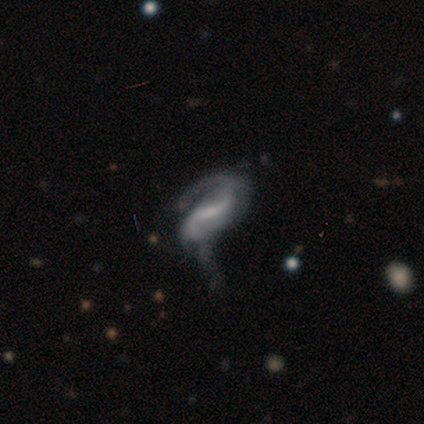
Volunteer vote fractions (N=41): This is clearly a featured or disk galaxy (88%). It is clearly not viewed edge-on (97%). Bar: possibly weak (51%). Spiral arm pattern: clearly yes (89%). Spiral arm count: clearly 2 (87%). Spiral winding: marginally medium (42%). Central bulge: possibly none (49%). Merging: possibly major disturbance (51%).